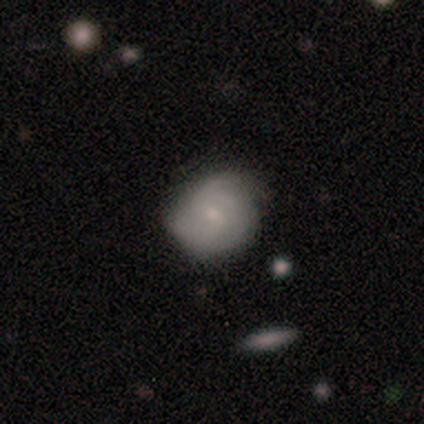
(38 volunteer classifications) Volunteers were most divided on "spiral winding" (2-way tie): tight: 47%, medium: 47%, loose: 6%. Remaining: edge-on disk — no (100%); spiral arms — yes (94%); bar — no (72%); bulge size — small (72%); merging — none (57%); spiral arm count — can't tell (53%); smooth or featured — featured or disk (47%).